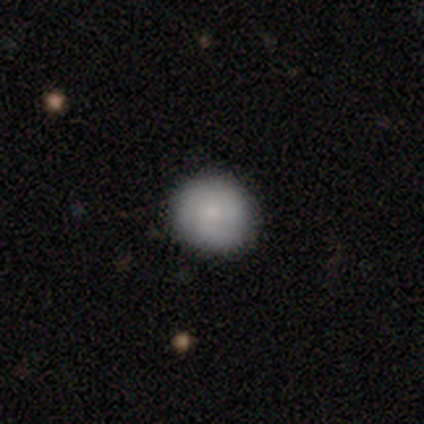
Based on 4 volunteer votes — This is clearly a smooth galaxy (100%). How rounded: clearly round (100%). Merging: likely none (75%).